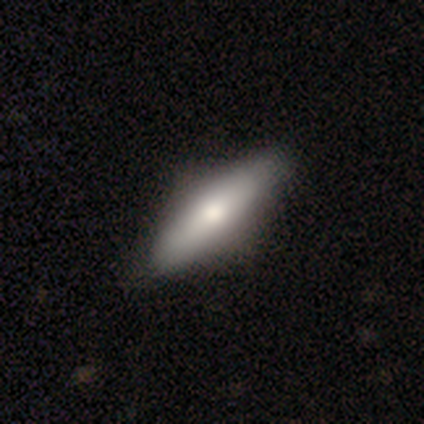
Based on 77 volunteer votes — A smooth galaxy with no disk features (68%) that is in between round and cigar-shaped (50%, tied with cigar-shaped). Merging: none (42%).